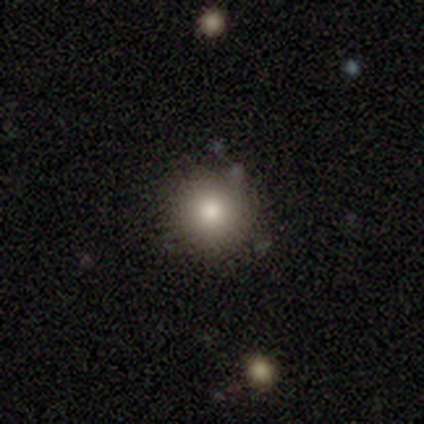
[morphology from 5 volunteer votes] Overall: smooth (100%). How rounded: round (100%). Merging: none (100%).